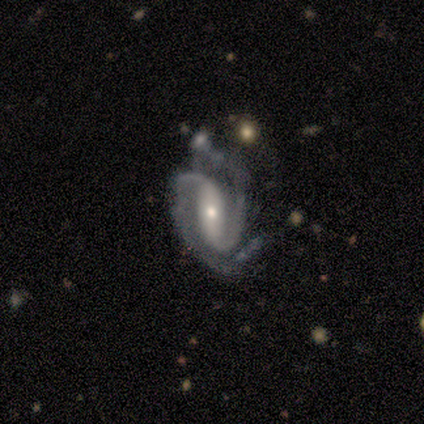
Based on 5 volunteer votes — Q: Smooth or featured?
A: featured or disk (80%); runner-up: smooth (20%)
Q: Edge-on disk?
A: no (100%)
Q: Bar?
A: strong (50%); runner-up: weak (25%)
Q: Spiral arms?
A: yes (100%)
Q: Spiral winding?
A: medium (75%); runner-up: tight (25%)
Q: Spiral arm count?
A: 2 (100%)
Q: Bulge size?
A: small (75%); runner-up: moderate (25%)
Q: Merging?
A: minor disturbance (40%); runner-up: none (20%)